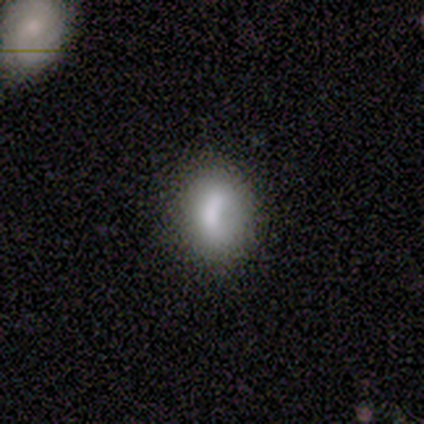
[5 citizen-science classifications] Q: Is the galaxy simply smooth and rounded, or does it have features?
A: smooth — 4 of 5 (80%).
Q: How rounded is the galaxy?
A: in between — 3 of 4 (75%).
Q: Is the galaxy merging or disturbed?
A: none — 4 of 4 (100%).